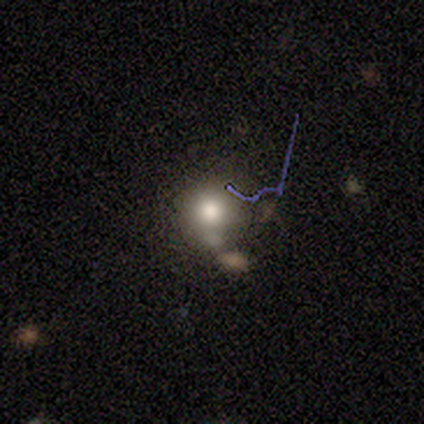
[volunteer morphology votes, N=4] Overall: smooth (50%, tied with featured or disk). How rounded: round (100%). Merging: none (50%; minor disturbance 25%).